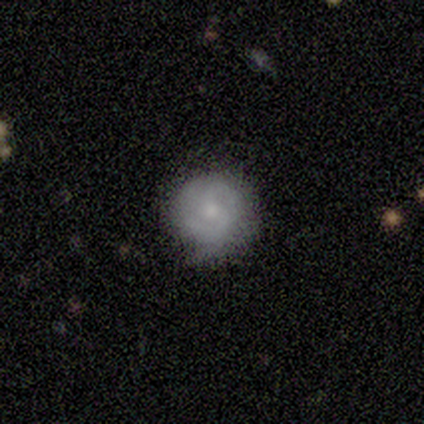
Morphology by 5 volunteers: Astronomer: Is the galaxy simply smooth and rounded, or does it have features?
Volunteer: featured or disk — 100%.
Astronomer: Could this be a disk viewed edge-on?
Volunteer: no — 100%.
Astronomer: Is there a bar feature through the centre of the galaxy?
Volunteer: no — 80%.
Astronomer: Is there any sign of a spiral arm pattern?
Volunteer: yes — 80%.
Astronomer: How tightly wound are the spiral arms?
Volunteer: tight — 75%.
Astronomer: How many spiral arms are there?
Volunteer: can't tell — 75%.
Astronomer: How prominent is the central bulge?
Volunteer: moderate — 60% (runner-up: small, 40%).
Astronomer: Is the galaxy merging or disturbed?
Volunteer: none — 80%.